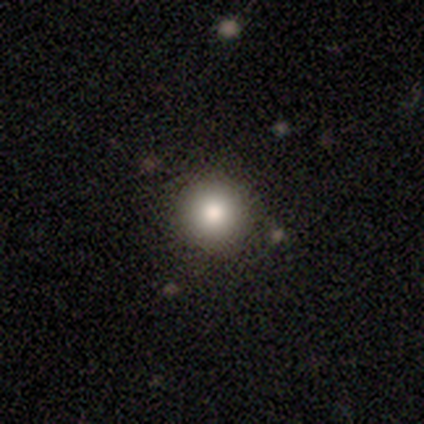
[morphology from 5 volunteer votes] This appears to be a smooth galaxy with no disk features (100%) that is round (100%). Merging: none (60%).